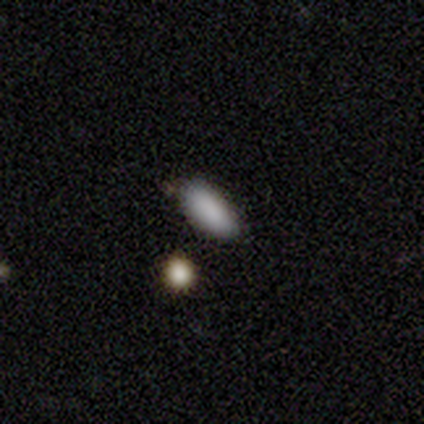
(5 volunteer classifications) Morphology: type=smooth (80%); roundness=in between (75%); merging=none (75%).